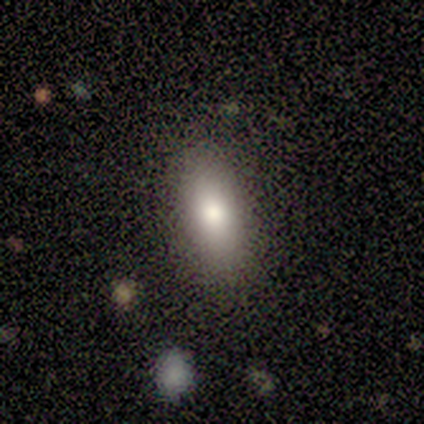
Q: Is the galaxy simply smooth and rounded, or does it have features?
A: smooth — 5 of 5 (100%).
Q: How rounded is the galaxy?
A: in between — 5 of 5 (100%).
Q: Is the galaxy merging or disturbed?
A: none — 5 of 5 (100%).